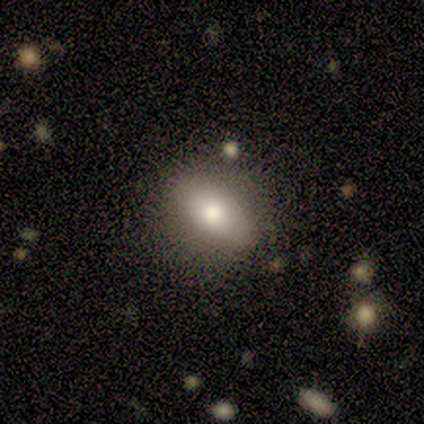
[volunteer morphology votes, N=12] smooth-or-featured: smooth: 58% | featured or disk: 42% | star or artifact: 0%
  how-rounded: in between: 86% | round: 14% | cigar-shaped: 0%
  merging: none: 75% | minor disturbance: 25% | major disturbance: 0% | merger: 0%